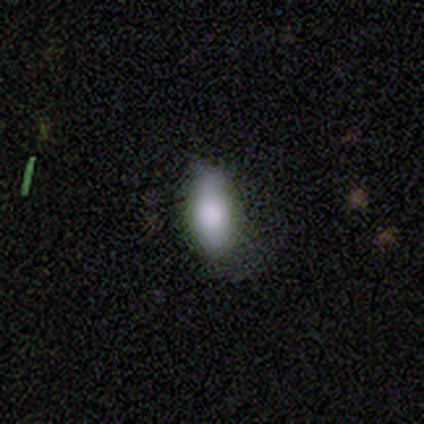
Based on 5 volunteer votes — A smooth galaxy with no disk features (100%) that is in between round and cigar-shaped (80%).

Vote fractions:
- Smooth or featured? smooth: 100% / featured or disk: 0% / star or artifact: 0%
- How rounded? in between: 80% / cigar-shaped: 20% / round: 0%
- Merging? none: 60% / minor disturbance: 20% / major disturbance: 20% / merger: 0%